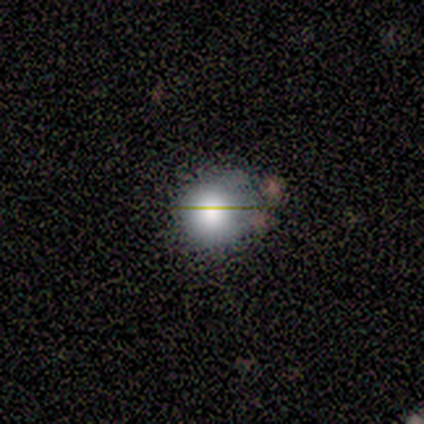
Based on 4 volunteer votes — Smooth or featured: smooth — 100%
How rounded: round — 100%
Merging: minor disturbance — 75% (none — 25%)